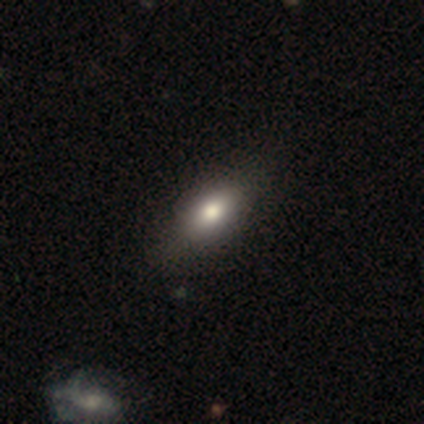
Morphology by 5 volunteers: Smooth or featured?
  - smooth: 80% *
  - featured or disk: 20%
  - star or artifact: 0%
How rounded?
  - in between: 100% *
  - round: 0%
  - cigar-shaped: 0%
Merging?
  - none: 100% *
  - minor disturbance: 0%
  - major disturbance: 0%
  - merger: 0%